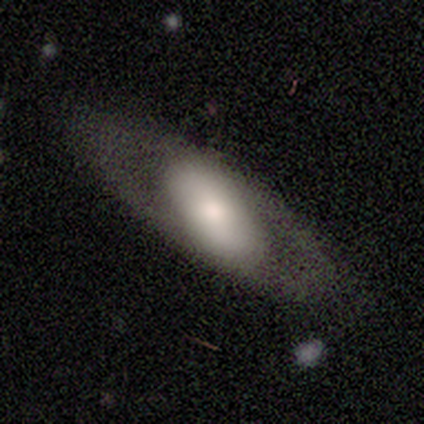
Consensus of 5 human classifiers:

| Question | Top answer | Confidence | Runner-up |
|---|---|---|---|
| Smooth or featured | featured or disk | 60% | smooth (40%) |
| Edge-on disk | no | 100% | — |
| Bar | strong | 33% | tied: weak (33%), no (33%) |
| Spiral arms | no | 100% | — |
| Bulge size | dominant | 33% | tied: moderate (33%), none (33%) |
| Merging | minor disturbance | 40% | tied: major disturbance (40%) |